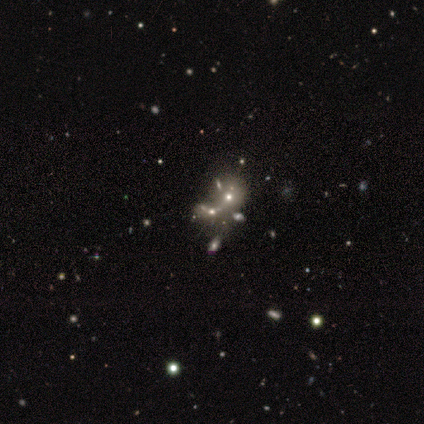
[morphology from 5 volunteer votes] Smooth or featured? 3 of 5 (60%) said star or artifact.